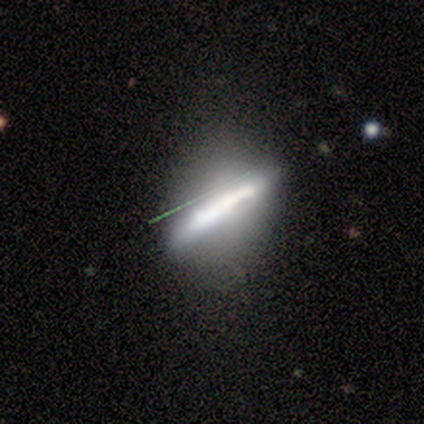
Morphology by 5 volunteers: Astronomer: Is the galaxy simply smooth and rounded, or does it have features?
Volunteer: featured or disk — 80%.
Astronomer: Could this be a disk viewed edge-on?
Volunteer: yes — 75%.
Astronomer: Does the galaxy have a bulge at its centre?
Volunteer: none — 100%.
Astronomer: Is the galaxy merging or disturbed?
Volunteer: none — 60% (runner-up: minor disturbance, 40%).